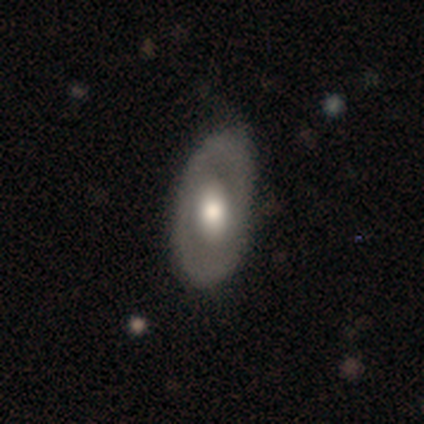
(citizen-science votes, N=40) Smooth or featured: smooth — 60% (featured or disk — 40%)
How rounded: in between — 88% (round — 12%)
Merging: none — 70% (minor disturbance — 30%)